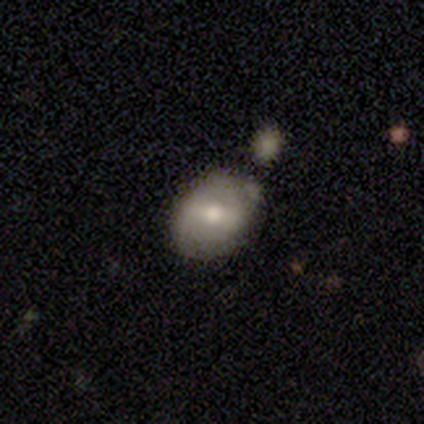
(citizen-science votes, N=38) This is possibly a smooth galaxy (55%). How rounded: likely in between (62%). Merging: likely none (73%).